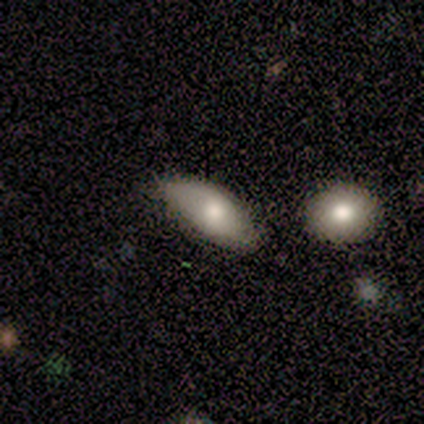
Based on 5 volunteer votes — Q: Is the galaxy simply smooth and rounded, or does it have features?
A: smooth — 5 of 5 (100%).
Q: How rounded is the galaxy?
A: in between — 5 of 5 (100%).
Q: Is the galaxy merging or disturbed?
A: minor disturbance — 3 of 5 (60%).